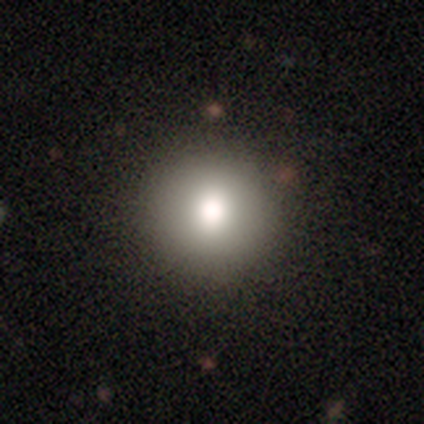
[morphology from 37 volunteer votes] Smooth or featured?
  - smooth: 78% *
  - star or artifact: 19%
  - featured or disk: 3%
How rounded?
  - round: 100% *
  - in between: 0%
  - cigar-shaped: 0%
Merging?
  - none: 70% *
  - merger: 7%
  - minor disturbance: 0%
  - major disturbance: 0%